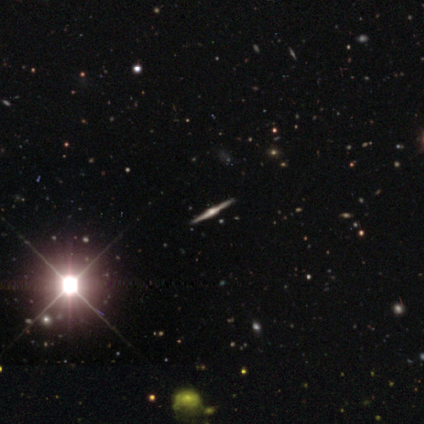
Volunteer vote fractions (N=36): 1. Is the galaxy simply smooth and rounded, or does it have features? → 78% featured or disk, 17% star or artifact, 6% smooth.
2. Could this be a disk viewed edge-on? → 100% yes, 0% no.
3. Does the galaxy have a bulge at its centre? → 75% rounded, 21% boxy, 4% none.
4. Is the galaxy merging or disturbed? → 93% none, 3% minor disturbance, 3% merger, 0% major disturbance.